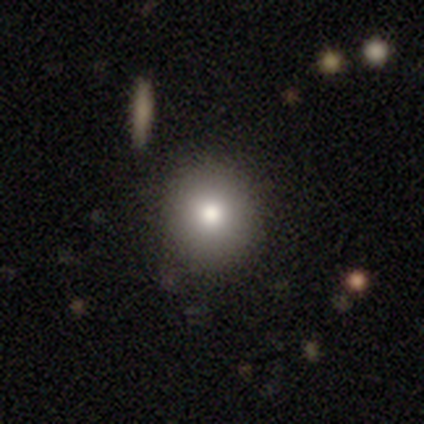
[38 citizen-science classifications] Morphology: type=smooth (82%); roundness=round (97%); merging=none (88%).